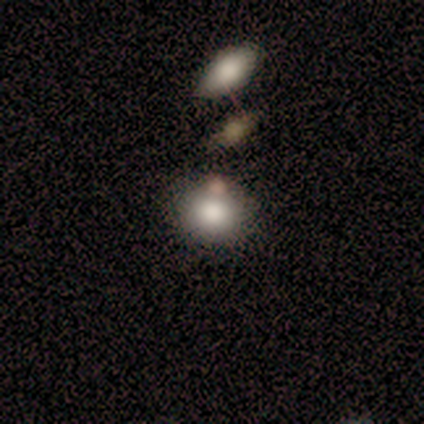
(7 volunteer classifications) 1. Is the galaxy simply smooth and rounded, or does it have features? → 86% smooth, 14% featured or disk, 0% star or artifact.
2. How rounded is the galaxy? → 67% in between, 33% round, 0% cigar-shaped.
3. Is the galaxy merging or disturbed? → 57% none, 14% minor disturbance, 14% major disturbance, 14% merger.